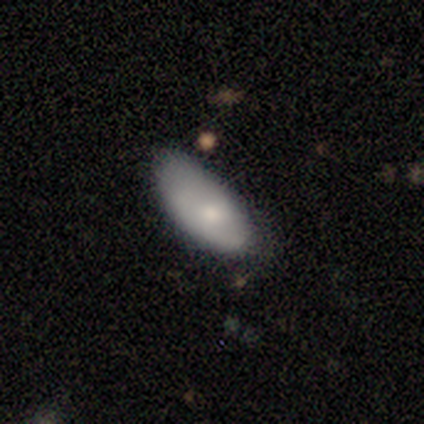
Overall: smooth (40%, tied with featured or disk). How rounded: in between (100%). Merging: none (75%).